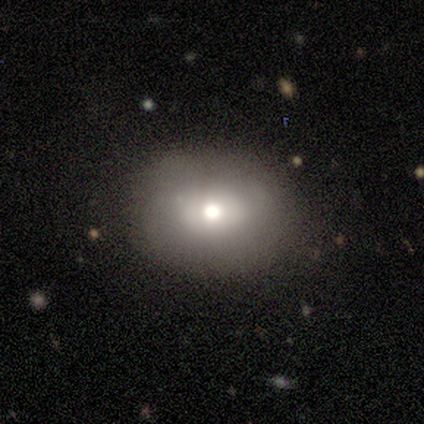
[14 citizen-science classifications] Morphology: type=smooth (71%); roundness=round (50%, tied with in between); merging=none (62%).